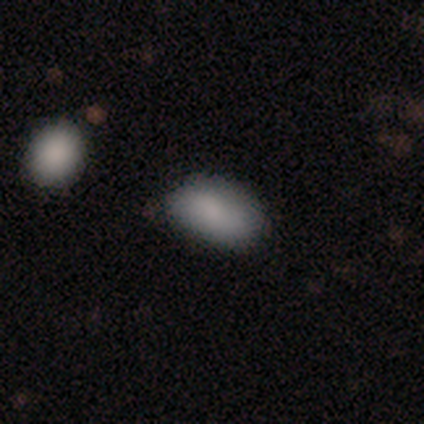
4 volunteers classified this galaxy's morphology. smooth-or-featured: smooth: 100% | featured or disk: 0% | star or artifact: 0%
  how-rounded: in between: 100% | round: 0% | cigar-shaped: 0%
  merging: none: 100% | minor disturbance: 0% | major disturbance: 0% | merger: 0%